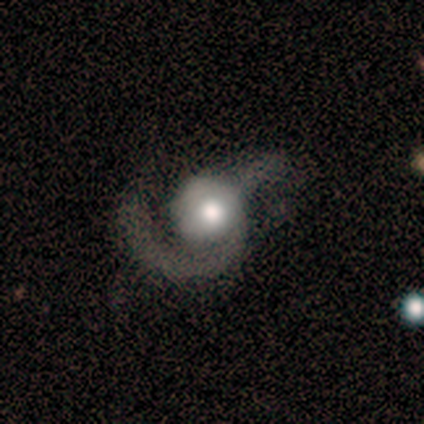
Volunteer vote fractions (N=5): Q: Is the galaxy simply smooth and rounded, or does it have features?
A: featured or disk — 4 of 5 (80%).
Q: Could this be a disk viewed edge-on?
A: no — 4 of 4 (100%).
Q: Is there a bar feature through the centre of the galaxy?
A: no — 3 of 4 (75%).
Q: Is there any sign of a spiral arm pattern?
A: yes — 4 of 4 (100%).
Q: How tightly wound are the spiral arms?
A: tight — 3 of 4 (75%).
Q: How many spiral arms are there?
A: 1 — 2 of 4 (50%, tied with 2).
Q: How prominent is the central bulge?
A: moderate — 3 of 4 (75%).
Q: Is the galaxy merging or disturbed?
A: major disturbance — 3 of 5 (60%).